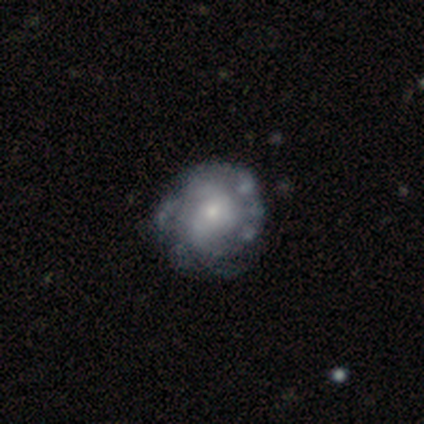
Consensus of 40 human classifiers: Smooth or featured? featured or disk (92%)
Edge-on disk? no (100%)
Bar? no (81%)
Spiral arms? yes (68%)
Spiral winding? medium (44%)
Spiral arm count? can't tell (52%)
Bulge size? small (62%)
Merging? none (60%)